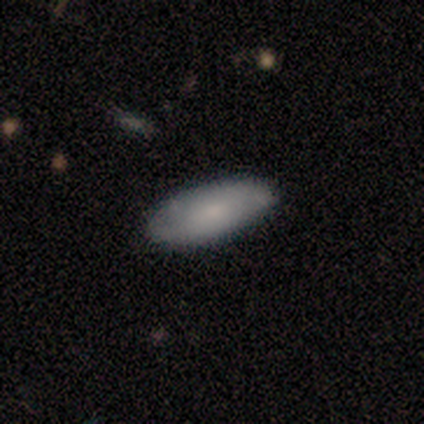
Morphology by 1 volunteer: smooth_or_featured: featured or disk (p=1.00)
disk_edge_on: no (p=1.00)
bar: weak (p=1.00)
has_spiral_arms: yes (p=1.00)
spiral_winding: medium (p=1.00)
spiral_arm_count: 2 (p=1.00)
bulge_size: large (p=1.00)
merging: none (p=1.00)